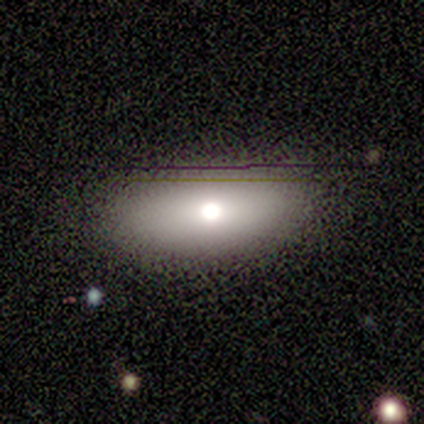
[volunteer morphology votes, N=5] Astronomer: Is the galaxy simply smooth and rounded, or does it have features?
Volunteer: smooth — 100%.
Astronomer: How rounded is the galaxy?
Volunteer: in between — 100%.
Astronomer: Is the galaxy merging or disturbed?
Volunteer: none — 100%.